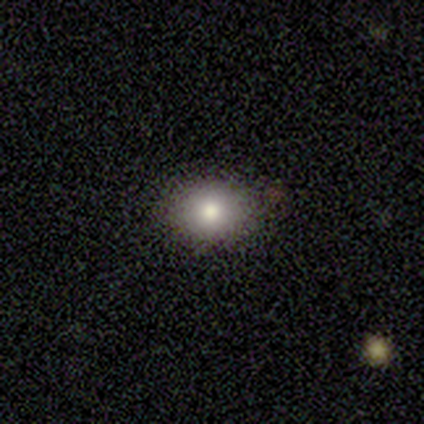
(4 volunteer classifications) A smooth galaxy with no disk features (75%) that is round (100%). Merging: none (100%).